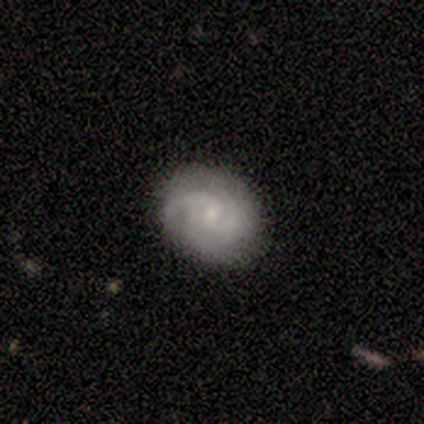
Smooth or featured? featured or disk (80%)
Edge-on disk? no (100%)
Bar? weak (50%)
Spiral arms? yes (88%)
Spiral winding? tight (57%)
Spiral arm count? 2 (71%)
Bulge size? small (75%)
Merging? none (89%)